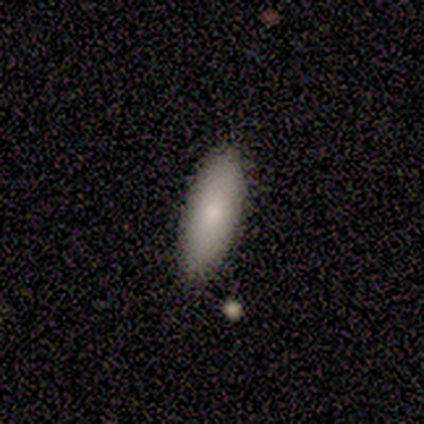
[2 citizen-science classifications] smooth-or-featured: smooth: 50% (tied) | featured or disk: 50% (tied) | star or artifact: 0%
  how-rounded: in between: 100% | round: 0% | cigar-shaped: 0%
  merging: none: 100% | minor disturbance: 0% | major disturbance: 0% | merger: 0%